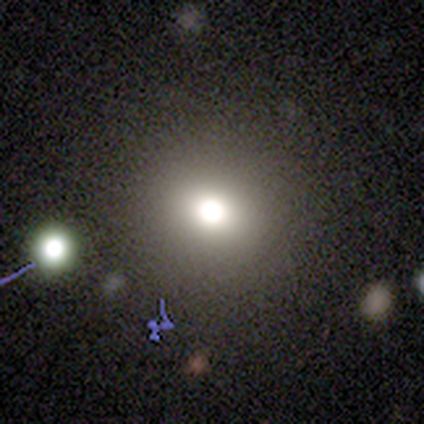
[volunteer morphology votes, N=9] A smooth galaxy with no disk features (78%) that is round (100%).

Vote fractions:
- Smooth or featured? smooth: 78% / star or artifact: 22% / featured or disk: 0%
- How rounded? round: 100% / in between: 0% / cigar-shaped: 0%
- Merging? none: 100% / minor disturbance: 0% / major disturbance: 0% / merger: 0%